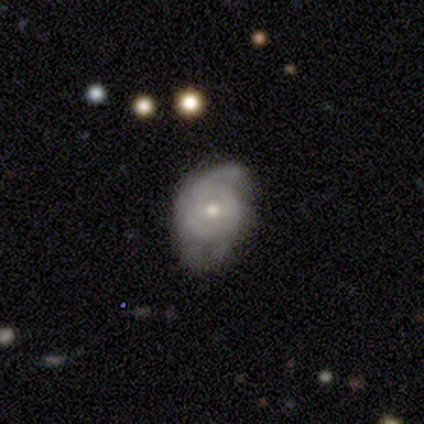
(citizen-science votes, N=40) Volunteers were most divided on "merging": minor disturbance: 42%, none: 40%, major disturbance: 18%, merger: 0%. More confident: edge-on disk — no (96%); spiral arms — yes (81%); smooth or featured — featured or disk (68%); spiral arm count — 2 (67%); spiral winding — tight (67%); bar — no (65%); bulge size — moderate (65%).